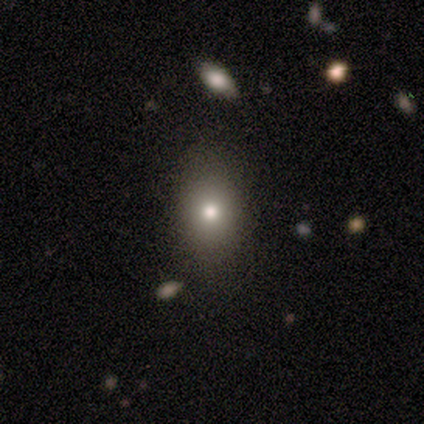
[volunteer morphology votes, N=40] This is likely a smooth galaxy (65%). How rounded: possibly round (54%). Merging: likely none (79%).